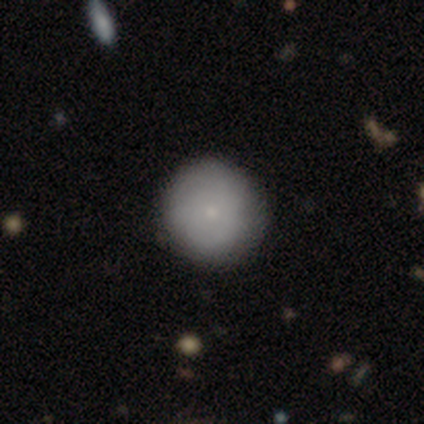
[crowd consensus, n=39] Volunteers were most divided on "smooth or featured": smooth: 69%, featured or disk: 31%, star or artifact: 0%. More confident: how rounded — round (93%); merging — none (62%).